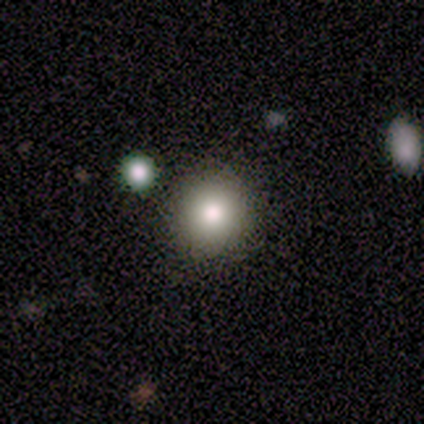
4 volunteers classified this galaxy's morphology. Smooth or featured? smooth (100%)
How rounded? round (100%)
Merging? none (100%)